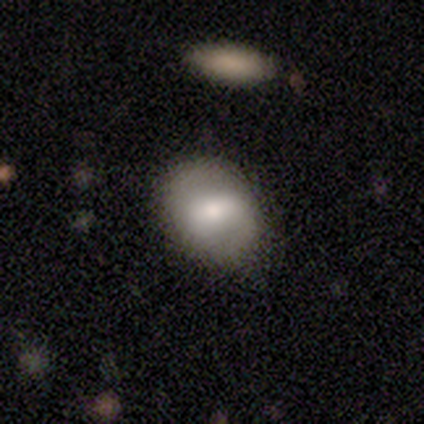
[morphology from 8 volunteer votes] Overall: featured or disk (62%; smooth 25%). Edge-on disk: no (100%). Bar: weak (60%; strong 20%). Spiral arms: no (60%; yes 40%). Bulge size: moderate (40%, tied with small). Merging: none (100%).